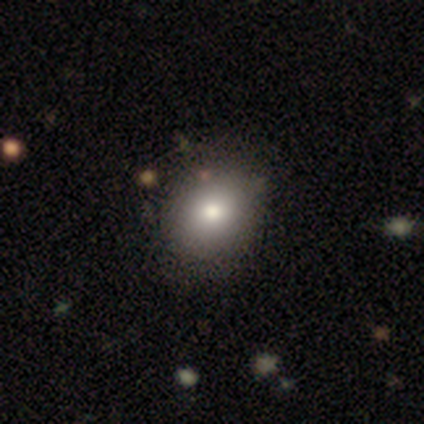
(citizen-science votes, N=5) Q: Smooth or featured?
A: smooth (80%); runner-up: featured or disk (20%)
Q: How rounded?
A: round (50%); tied with: in between (50%)
Q: Merging?
A: none (60%); runner-up: minor disturbance (20%)